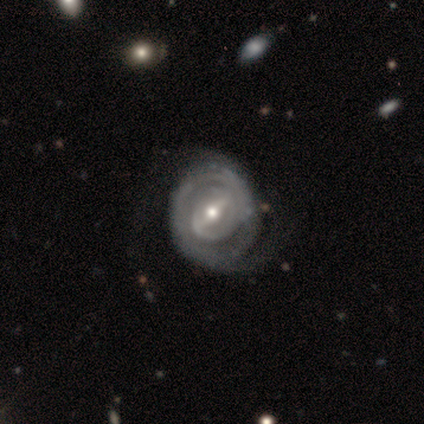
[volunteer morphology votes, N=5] featured or disk 80%, star or artifact 20%, smooth 0%. Down the decision tree: edge-on disk — no (100%); bar — strong (100%); spiral arms — yes (100%); spiral arm count — can't tell (75%); spiral winding — tight (75%); bulge size — moderate (100%); merging — none (75%).